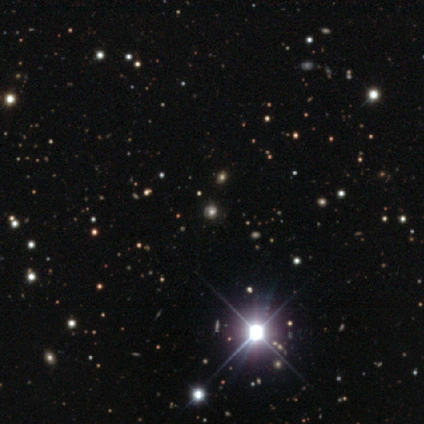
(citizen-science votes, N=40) Smooth or featured? 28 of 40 (70%) said star or artifact.